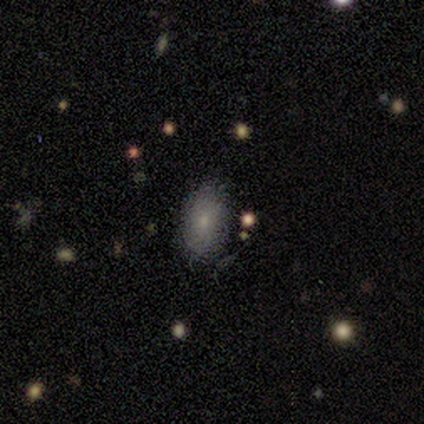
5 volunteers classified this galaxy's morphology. Volunteers were most divided on "smooth or featured": smooth: 80%, featured or disk: 20%, star or artifact: 0%. More confident: how rounded — in between (100%); merging — none (100%).